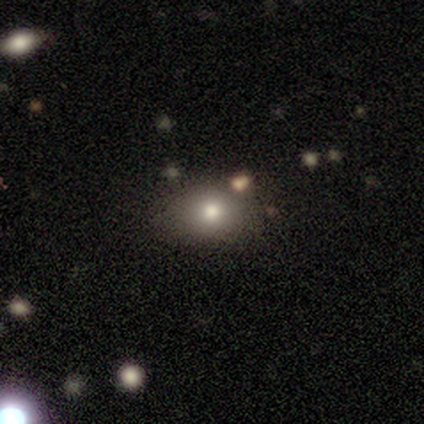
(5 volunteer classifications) A smooth galaxy with no disk features (60%) that is round (67%).

Vote fractions:
- Smooth or featured? smooth: 60% / featured or disk: 20% / star or artifact: 20%
- How rounded? round: 67% / in between: 33% / cigar-shaped: 0%
- Merging? none: 75% / minor disturbance: 25% / major disturbance: 0% / merger: 0%